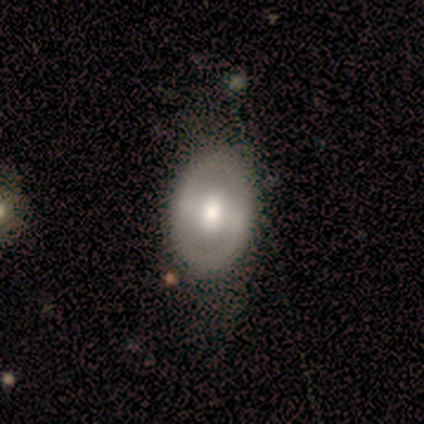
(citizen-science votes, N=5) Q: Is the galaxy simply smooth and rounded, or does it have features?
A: featured or disk — 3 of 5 (60%).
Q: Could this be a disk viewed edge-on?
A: no — 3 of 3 (100%).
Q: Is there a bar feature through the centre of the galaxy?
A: no — 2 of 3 (67%).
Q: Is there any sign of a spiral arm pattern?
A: no — 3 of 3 (100%).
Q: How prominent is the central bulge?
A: moderate — 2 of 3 (67%).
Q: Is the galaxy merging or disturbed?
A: none — 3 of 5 (60%).